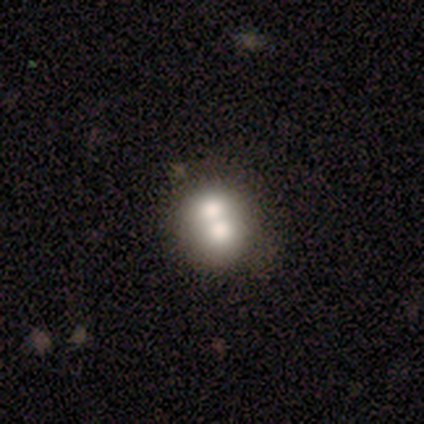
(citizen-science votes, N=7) This appears to be a featured or disk galaxy (57%) with no bar (75%), no spiral arms (100%) and a large central bulge (50%). Merging: merger (57%).